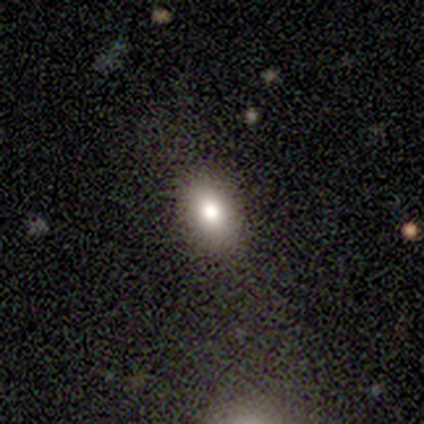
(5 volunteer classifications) Q: Smooth or featured?
A: smooth (100%)
Q: How rounded?
A: in between (80%); runner-up: round (20%)
Q: Merging?
A: none (60%); runner-up: minor disturbance (40%)